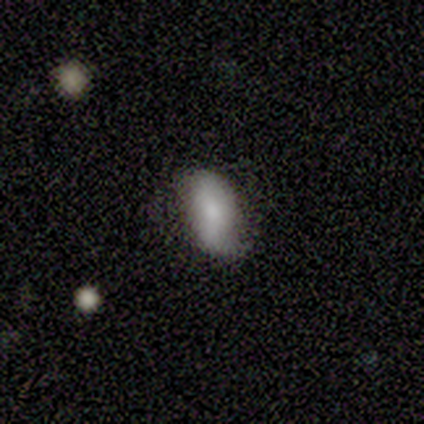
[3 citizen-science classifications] smooth-or-featured: smooth: 100% | featured or disk: 0% | star or artifact: 0%
  how-rounded: in between: 100% | round: 0% | cigar-shaped: 0%
  merging: none: 67% | merger: 33% | minor disturbance: 0% | major disturbance: 0%